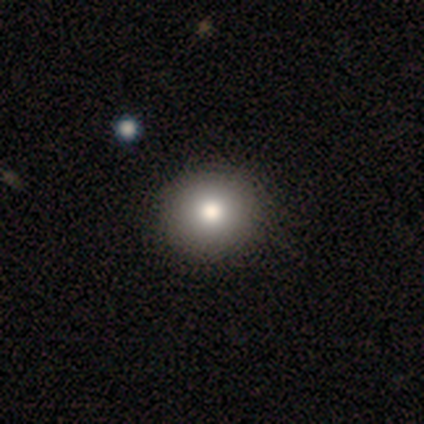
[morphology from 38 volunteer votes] A smooth galaxy with no disk features (79%) that is round (97%).

Vote fractions:
- Smooth or featured? smooth: 79% / featured or disk: 11% / star or artifact: 11%
- How rounded? round: 97% / in between: 3% / cigar-shaped: 0%
- Merging? none: 71% / minor disturbance: 3% / major disturbance: 0% / merger: 0%